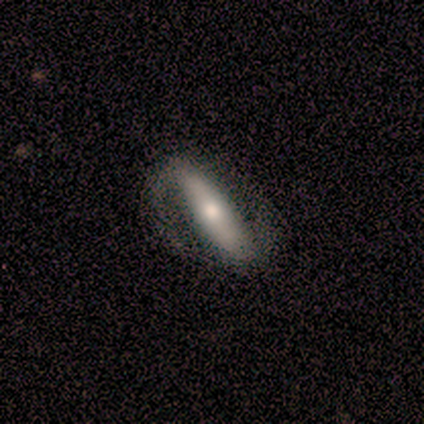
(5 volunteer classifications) Smooth or featured: featured or disk — 60% (smooth — 40%)
Edge-on disk: no — 100%
Bar: weak — 67% (strong — 33%)
Spiral arms: yes — 100%
Spiral winding: medium — 67% (loose — 33%)
Spiral arm count: 2 — 100%
Bulge size: small — 67% (moderate — 33%)
Merging: none — 80% (major disturbance — 20%)